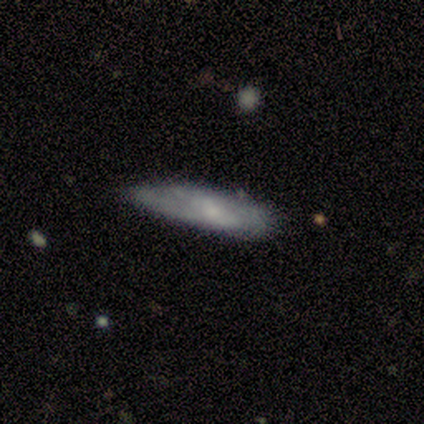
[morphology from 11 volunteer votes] This appears to be a smooth galaxy with no disk features (55%) that is cigar-shaped (83%). Merging: none (60%).